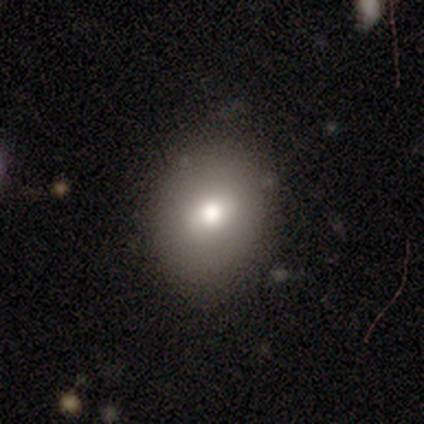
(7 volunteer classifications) Morphology: type=smooth (86%); roundness=round (67%); merging=none (71%).